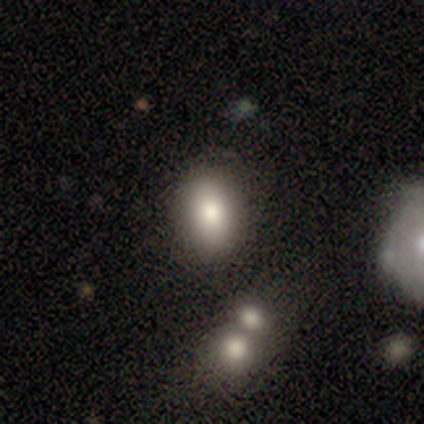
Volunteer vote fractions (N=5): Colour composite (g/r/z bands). It shows a smooth galaxy with no disk features (60%) that is in between round and cigar-shaped (67%). Merging: none (67%).